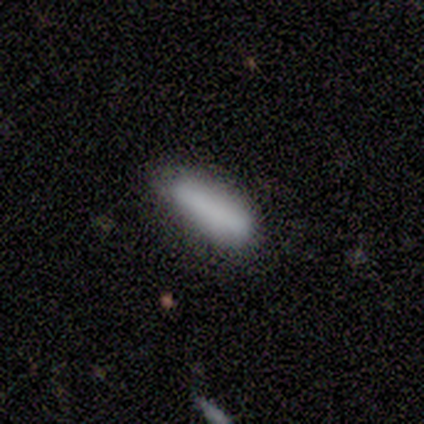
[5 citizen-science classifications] Smooth or featured?
  - smooth: 80% *
  - star or artifact: 20%
  - featured or disk: 0%
How rounded?
  - cigar-shaped: 75% *
  - in between: 25%
  - round: 0%
Merging?
  - none: 50% * (tied)
  - minor disturbance: 50% * (tied)
  - major disturbance: 0%
  - merger: 0%